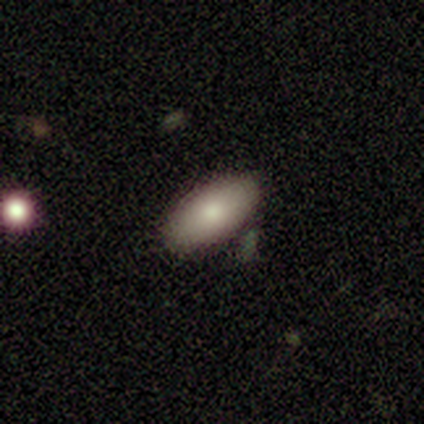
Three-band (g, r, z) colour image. It shows a smooth galaxy with no disk features (80%) that is in between round and cigar-shaped (94%). Merging: none (84%).